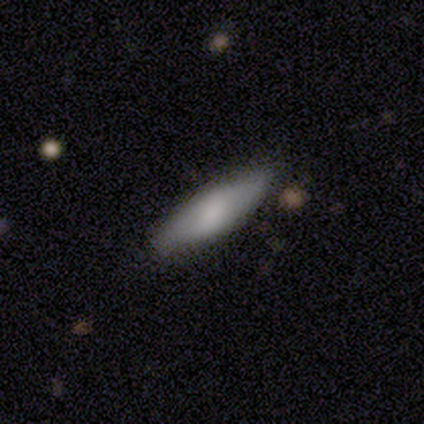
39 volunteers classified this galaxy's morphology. A smooth galaxy with no disk features (74%) that is cigar-shaped (55%).

Vote fractions:
- Smooth or featured? smooth: 74% / featured or disk: 21% / star or artifact: 5%
- How rounded? cigar-shaped: 55% / in between: 45% / round: 0%
- Merging? none: 70% / minor disturbance: 27% / merger: 3% / major disturbance: 0%